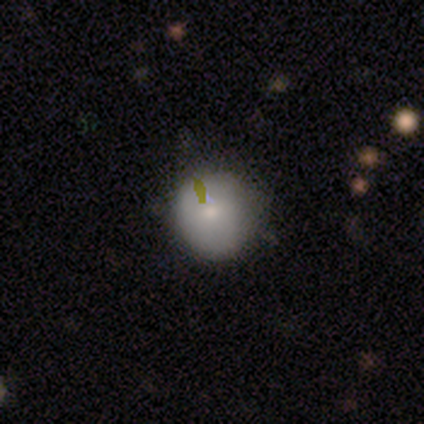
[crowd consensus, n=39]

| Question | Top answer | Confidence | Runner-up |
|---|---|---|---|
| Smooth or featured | smooth | 77% | featured or disk (13%) |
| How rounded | round | 93% | in between (7%) |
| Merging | none | 54% | minor disturbance (17%) |